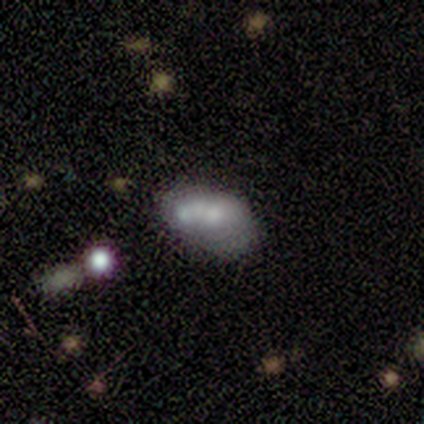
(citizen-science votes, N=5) Smooth or featured: smooth — 80% (featured or disk — 20%)
How rounded: in between — 75% (round — 25%)
Merging: none — 60% (major disturbance — 20%)